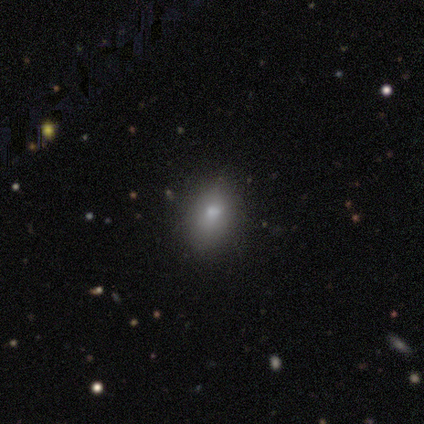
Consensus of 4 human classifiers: Smooth or featured? smooth (75%)
How rounded? in between (67%)
Merging? none (100%)